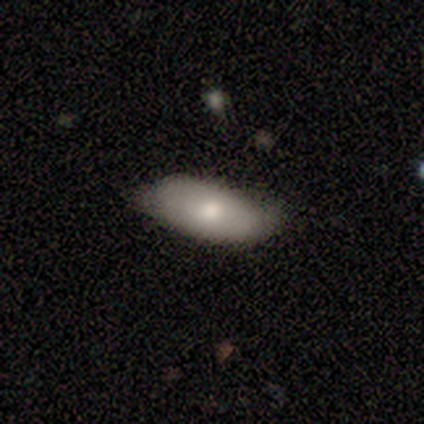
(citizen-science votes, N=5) A smooth galaxy with no disk features (80%) that is in between round and cigar-shaped (100%). Merging: none (80%).